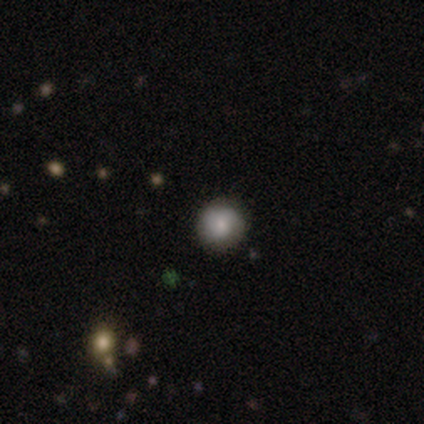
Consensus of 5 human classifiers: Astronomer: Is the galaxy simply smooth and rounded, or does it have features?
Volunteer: smooth — 60%.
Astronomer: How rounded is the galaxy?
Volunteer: round — 100%.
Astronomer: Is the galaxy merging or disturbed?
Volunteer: none — 100%.